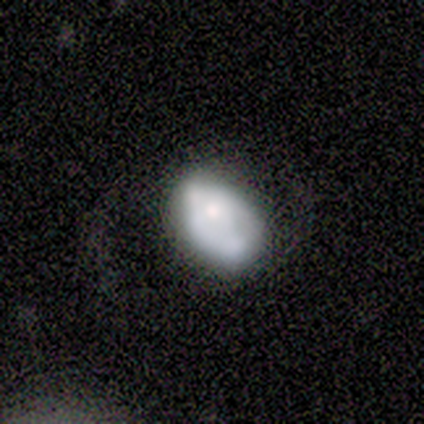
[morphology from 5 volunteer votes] smooth_or_featured: featured or disk (p=0.80) [alt: smooth p=0.20]
disk_edge_on: no (p=1.00)
bar: no (p=0.75) [alt: weak p=0.25]
has_spiral_arms: no (p=0.75) [alt: yes p=0.25]
bulge_size: moderate (p=0.75) [alt: small p=0.25]
merging: minor disturbance (p=0.40) [alt: none p=0.20]